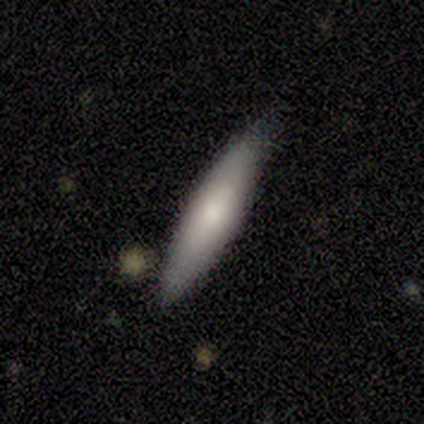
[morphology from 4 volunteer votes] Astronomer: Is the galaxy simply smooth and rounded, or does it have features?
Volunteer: smooth — 50%, tied with featured or disk at 50%.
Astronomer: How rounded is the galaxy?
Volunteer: cigar-shaped — 100%.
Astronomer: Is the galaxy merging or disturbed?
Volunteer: none — 100%.